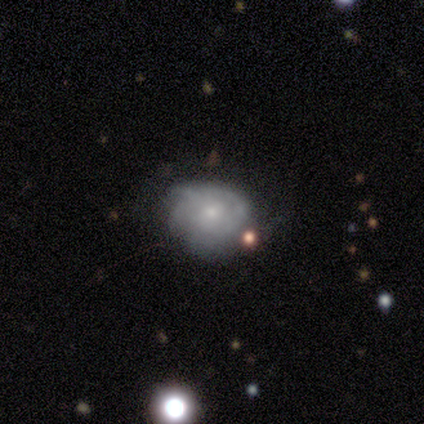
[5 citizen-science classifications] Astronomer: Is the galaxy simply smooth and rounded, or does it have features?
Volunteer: featured or disk — 100%.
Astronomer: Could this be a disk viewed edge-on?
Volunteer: no — 100%.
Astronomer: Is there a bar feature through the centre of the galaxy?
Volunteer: no — 80%.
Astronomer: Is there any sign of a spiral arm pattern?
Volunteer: yes — 80%.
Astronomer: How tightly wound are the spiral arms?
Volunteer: tight — 50%, tied with medium at 50%.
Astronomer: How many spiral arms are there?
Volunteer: can't tell — 100%.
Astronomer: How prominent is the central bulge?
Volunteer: moderate — 40%, tied with small at 40%.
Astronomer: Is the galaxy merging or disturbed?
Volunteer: none — 60% (runner-up: minor disturbance, 40%).